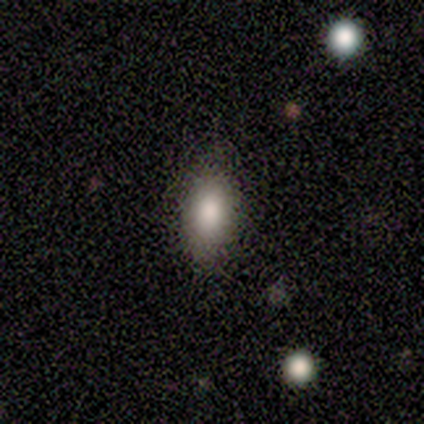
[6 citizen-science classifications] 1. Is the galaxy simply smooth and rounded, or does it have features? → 83% smooth, 17% featured or disk, 0% star or artifact.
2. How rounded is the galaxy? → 80% in between, 20% round, 0% cigar-shaped.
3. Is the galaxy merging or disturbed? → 67% none, 33% minor disturbance, 0% major disturbance, 0% merger.